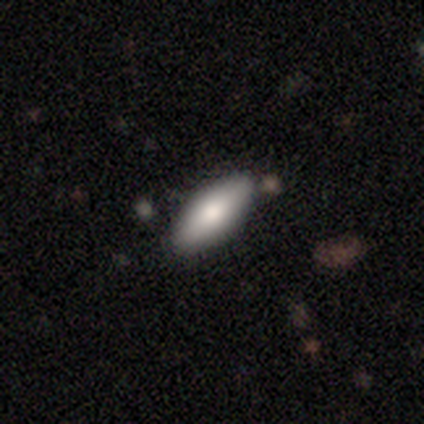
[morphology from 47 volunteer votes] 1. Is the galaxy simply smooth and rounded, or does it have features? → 81% smooth, 15% featured or disk, 4% star or artifact.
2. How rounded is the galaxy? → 74% in between, 26% cigar-shaped, 0% round.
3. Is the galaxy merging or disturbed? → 93% none, 7% minor disturbance, 0% major disturbance, 0% merger.